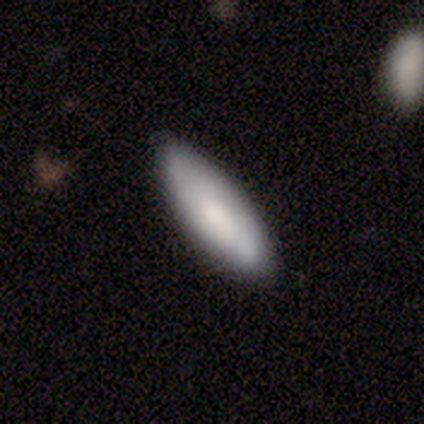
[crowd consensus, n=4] Smooth or featured: smooth — 75% (star or artifact — 25%)
How rounded: cigar-shaped — 100%
Merging: none — 100%